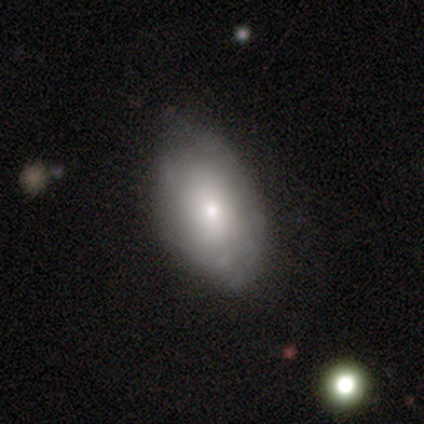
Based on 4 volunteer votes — Smooth or featured?
  - smooth: 100% *
  - featured or disk: 0%
  - star or artifact: 0%
How rounded?
  - in between: 100% *
  - round: 0%
  - cigar-shaped: 0%
Merging?
  - none: 75% *
  - minor disturbance: 25%
  - major disturbance: 0%
  - merger: 0%